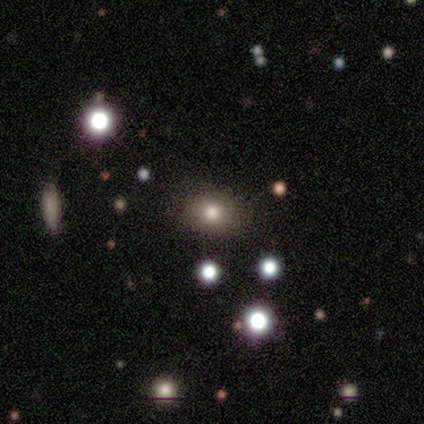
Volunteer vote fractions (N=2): A smooth galaxy with no disk features (100%) that is round (100%).

Vote fractions:
- Smooth or featured? smooth: 100% / featured or disk: 0% / star or artifact: 0%
- How rounded? round: 100% / in between: 0% / cigar-shaped: 0%
- Merging? none: 100% / minor disturbance: 0% / major disturbance: 0% / merger: 0%